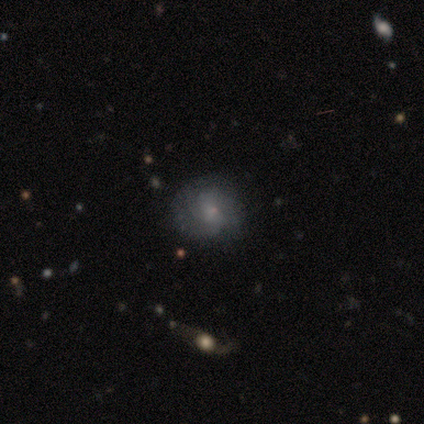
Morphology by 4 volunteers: Q: Smooth or featured?
A: smooth (75%); runner-up: featured or disk (25%)
Q: How rounded?
A: round (100%)
Q: Merging?
A: none (75%); runner-up: major disturbance (25%)